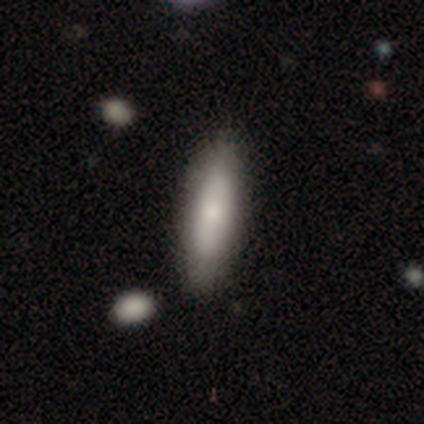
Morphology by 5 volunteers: This appears to be a smooth galaxy with no disk features (80%) that is cigar-shaped (75%). Merging: none (100%).